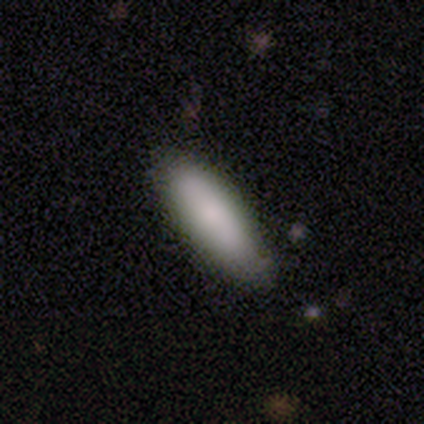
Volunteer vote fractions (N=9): This appears to be a smooth galaxy with no disk features (78%) that is in between round and cigar-shaped (86%). Merging: none (62%).